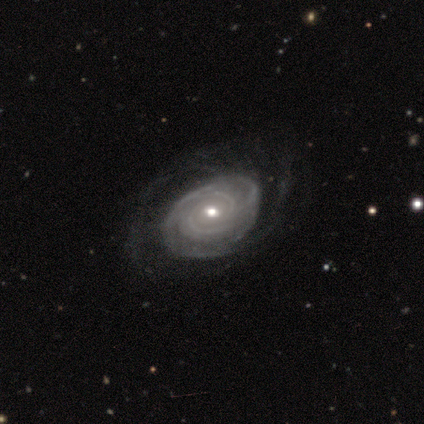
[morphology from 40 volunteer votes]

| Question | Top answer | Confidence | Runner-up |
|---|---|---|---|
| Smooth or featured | featured or disk | 100% | — |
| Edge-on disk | no | 100% | — |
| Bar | no | 72% | weak (22%) |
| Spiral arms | yes | 95% | no (5%) |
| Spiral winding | tight | 84% | medium (11%) |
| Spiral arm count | can't tell | 55% | 2 (21%) |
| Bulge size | moderate | 68% | small (30%) |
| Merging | none | 42% | minor disturbance (15%) |